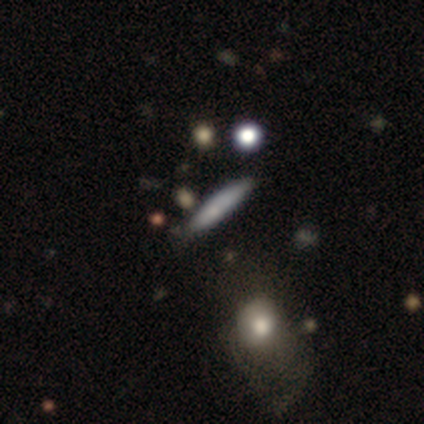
Volunteers were most divided on "smooth or featured": smooth: 67%, featured or disk: 20%, star or artifact: 13%. More confident: how rounded — cigar-shaped (100%); merging — none (69%).